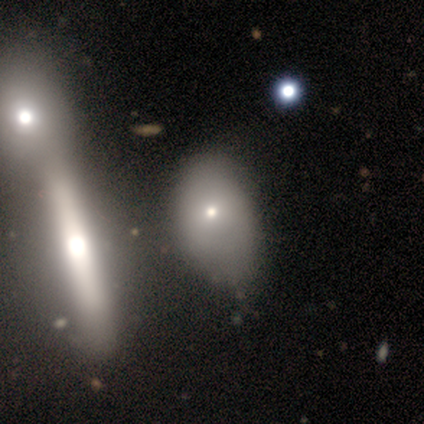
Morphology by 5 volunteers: This appears to be a smooth galaxy with no disk features (80%) that is in between round and cigar-shaped (75%). Merging: minor disturbance (60%).